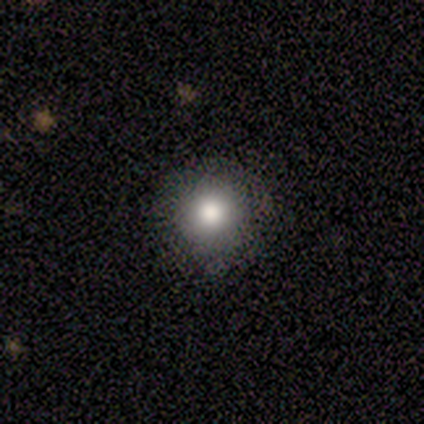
Overall: smooth (81%). How rounded: round (97%). Merging: none (64%).